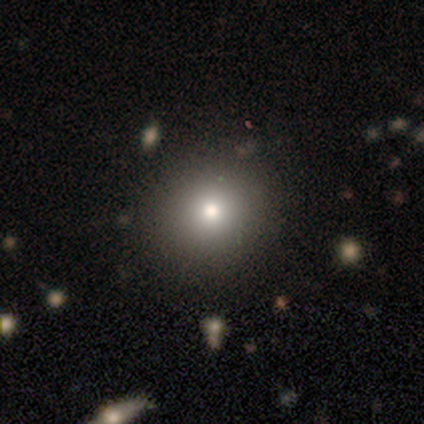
Smooth or featured?
  - featured or disk: 40% * (tied)
  - star or artifact: 40% * (tied)
  - smooth: 20%
Edge-on disk?
  - no: 100% *
  - yes: 0%
Bar?
  - no: 100% *
  - strong: 0%
  - weak: 0%
Spiral arms?
  - no: 100% *
  - yes: 0%
Bulge size?
  - moderate: 100% *
  - dominant: 0%
  - large: 0%
  - small: 0%
  - none: 0%
Merging?
  - none: 67% *
  - minor disturbance: 33%
  - major disturbance: 0%
  - merger: 0%